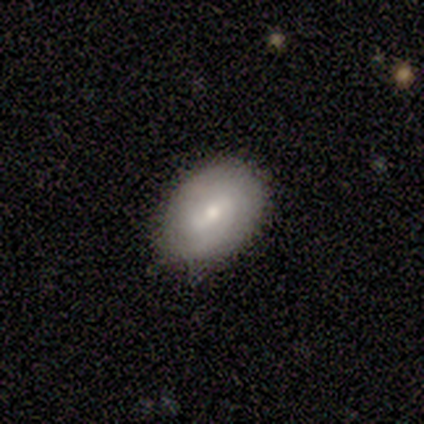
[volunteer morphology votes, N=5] A featured or disk galaxy (80%) with a weak bar (100%), tight (100%) spiral arms (100%) and a small central bulge (75%). Merging: none (100%).